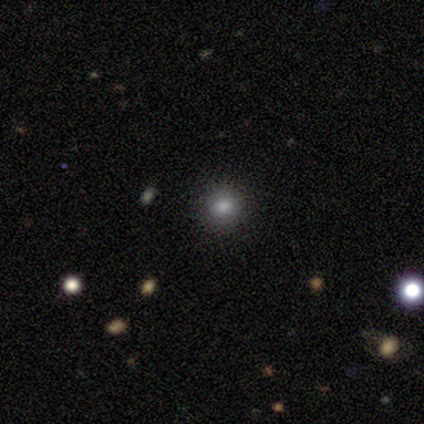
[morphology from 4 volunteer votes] Smooth or featured?
  - smooth: 75% *
  - star or artifact: 25%
  - featured or disk: 0%
How rounded?
  - round: 67% *
  - in between: 33%
  - cigar-shaped: 0%
Merging?
  - none: 100% *
  - minor disturbance: 0%
  - major disturbance: 0%
  - merger: 0%